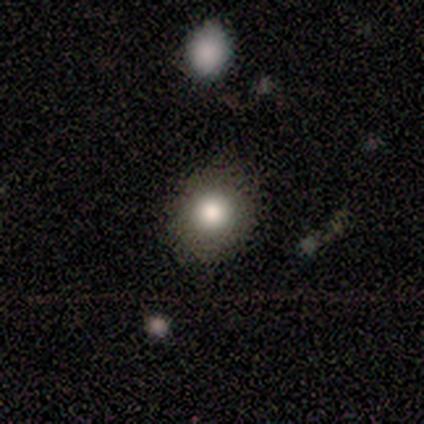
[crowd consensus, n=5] Smooth or featured?
  - smooth: 100% *
  - featured or disk: 0%
  - star or artifact: 0%
How rounded?
  - round: 100% *
  - in between: 0%
  - cigar-shaped: 0%
Merging?
  - none: 80% *
  - minor disturbance: 20%
  - major disturbance: 0%
  - merger: 0%